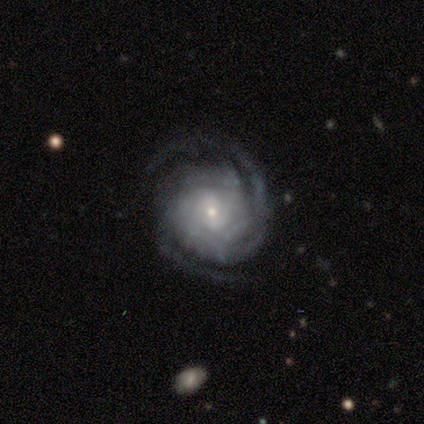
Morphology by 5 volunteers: Smooth or featured? 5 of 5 (100%) said featured or disk. Edge-on disk? 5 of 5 (100%) said no. Bar? 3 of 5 (60%) said no. Spiral arms? 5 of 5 (100%) said yes. Spiral winding? 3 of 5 (60%) said tight. Spiral arm count? 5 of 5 (100%) said 2. Bulge size? 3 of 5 (60%) said small. Merging? 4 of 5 (80%) said none.